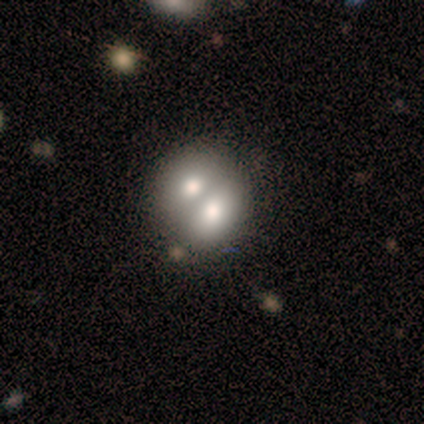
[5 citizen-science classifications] This is clearly a smooth galaxy (80%). How rounded: possibly round (50%, tied with in between). Merging: clearly merger (100%).